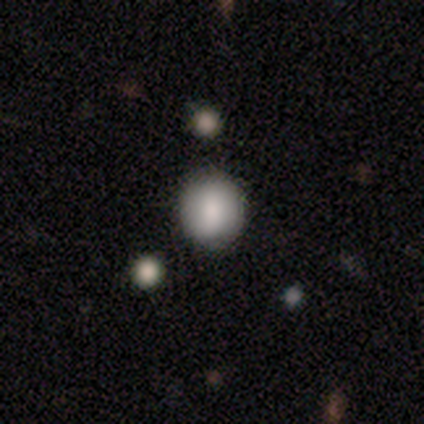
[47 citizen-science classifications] A smooth galaxy with no disk features (85%) that is round (85%).

Vote fractions:
- Smooth or featured? smooth: 85% / featured or disk: 9% / star or artifact: 6%
- How rounded? round: 85% / in between: 15% / cigar-shaped: 0%
- Merging? none: 86% / merger: 7% / minor disturbance: 5% / major disturbance: 2%